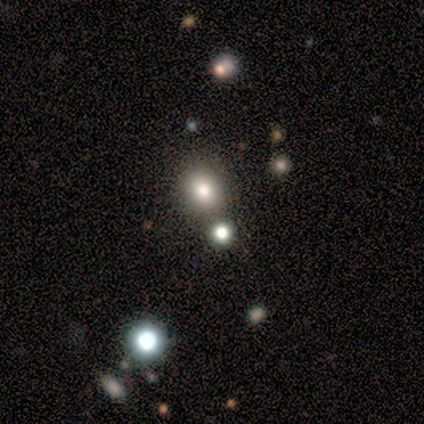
This is marginally a smooth galaxy (40%, tied with star or artifact). How rounded: clearly round (100%). Merging: likely none (67%).